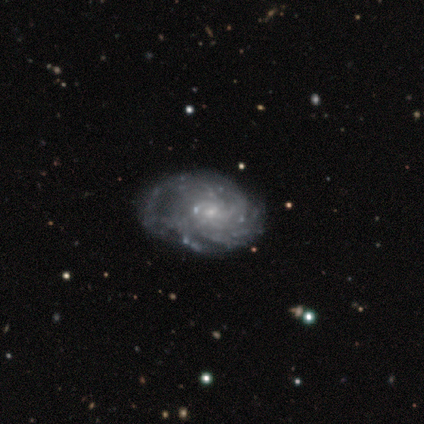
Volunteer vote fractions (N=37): This is likely a featured or disk galaxy (73%). It is clearly not viewed edge-on (100%). Bar: likely no (78%). Spiral arm pattern: clearly yes (85%). Spiral arm count: possibly can't tell (48%). Spiral winding: clearly tight (83%). Central bulge: likely small (70%). Merging: possibly none (57%).